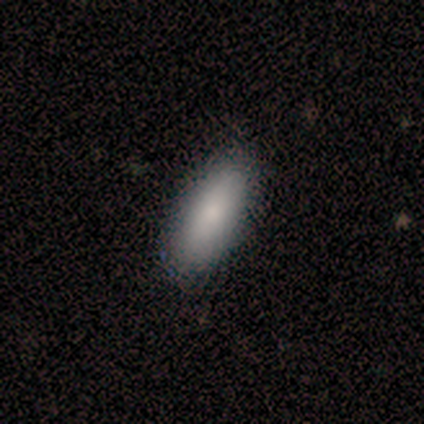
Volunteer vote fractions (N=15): Volunteers were most divided on "how rounded": in between: 69%, cigar-shaped: 31%, round: 0%. More confident: smooth or featured — smooth (87%); merging — none (79%).